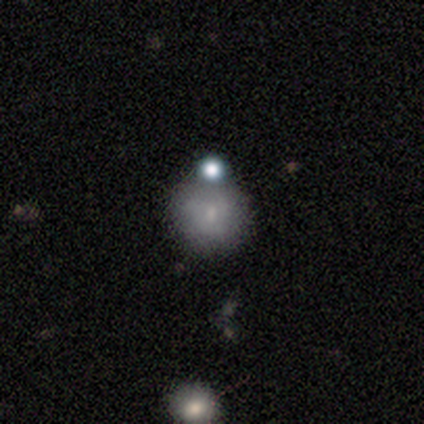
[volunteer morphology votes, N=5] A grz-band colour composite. It shows a smooth galaxy with no disk features (60%) that is round (100%). Merging: none (80%).